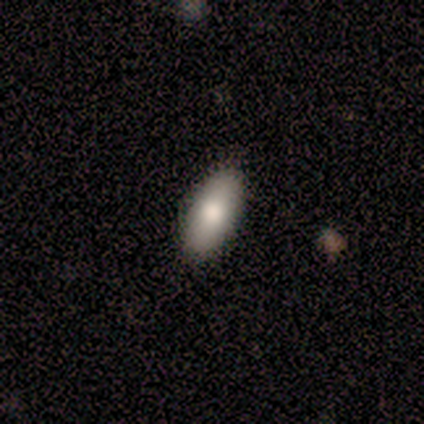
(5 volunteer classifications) Overall: smooth (100%). How rounded: in between (100%). Merging: none (100%).